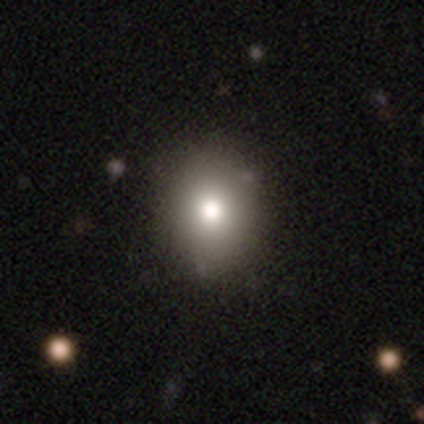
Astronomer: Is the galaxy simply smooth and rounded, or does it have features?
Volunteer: smooth — 89%.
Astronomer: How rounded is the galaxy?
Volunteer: round — 61% (runner-up: in between, 39%).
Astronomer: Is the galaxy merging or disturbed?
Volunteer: none — 78%.